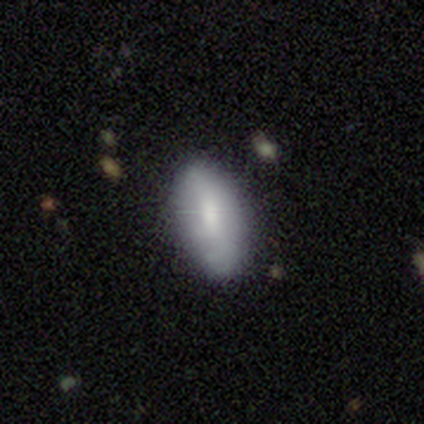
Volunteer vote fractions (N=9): Q: Smooth or featured?
A: smooth (78%); runner-up: featured or disk (22%)
Q: How rounded?
A: in between (100%)
Q: Merging?
A: none (89%); runner-up: minor disturbance (11%)